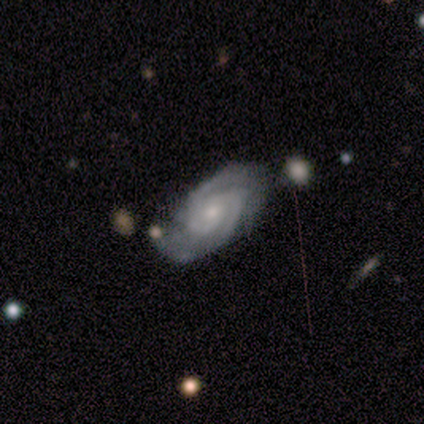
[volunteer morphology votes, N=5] Smooth or featured: featured or disk — 100%
Edge-on disk: no — 100%
Bar: no — 60% (weak — 40%)
Spiral arms: yes — 100%
Spiral winding: medium — 60% (tight — 40%)
Spiral arm count: 2 — 60% (3 — 20%)
Bulge size: small — 40% (tied with none — 40%)
Merging: none — 80% (minor disturbance — 20%)